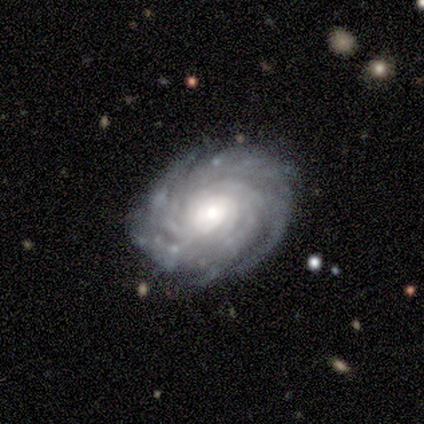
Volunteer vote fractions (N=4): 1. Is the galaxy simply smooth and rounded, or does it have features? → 100% featured or disk, 0% smooth, 0% star or artifact.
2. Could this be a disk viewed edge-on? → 100% no, 0% yes.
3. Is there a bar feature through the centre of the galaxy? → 100% no, 0% strong, 0% weak.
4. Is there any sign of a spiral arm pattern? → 100% yes, 0% no.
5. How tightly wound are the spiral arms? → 100% tight, 0% medium, 0% loose.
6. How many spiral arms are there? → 50% 3, 25% more than 4, 25% can't tell, 0% 1, 0% 2, 0% 4.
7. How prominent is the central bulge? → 50% small, 25% large, 25% moderate, 0% dominant, 0% none.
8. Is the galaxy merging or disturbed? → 75% none, 25% merger, 0% minor disturbance, 0% major disturbance.